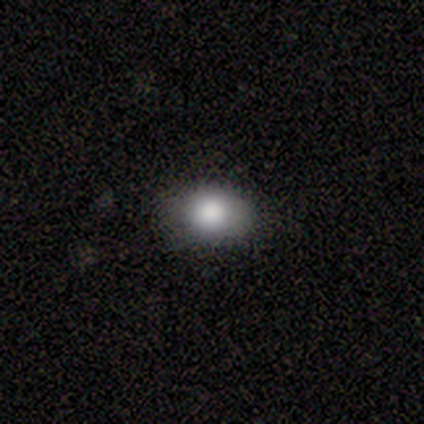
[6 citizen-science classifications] This appears to be a smooth galaxy with no disk features (100%) that is round (50%, tied with in between). Merging: none (83%).